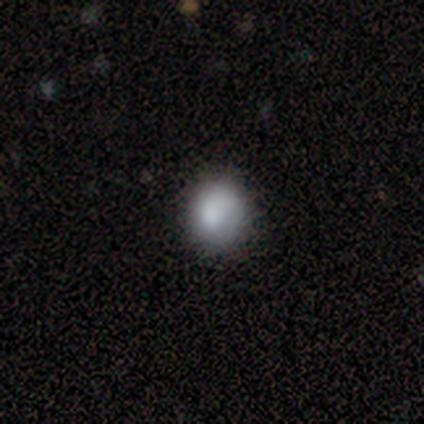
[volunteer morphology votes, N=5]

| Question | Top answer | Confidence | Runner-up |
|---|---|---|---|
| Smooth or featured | smooth | 100% | — |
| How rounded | round | 60% | in between (40%) |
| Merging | none | 100% | — |